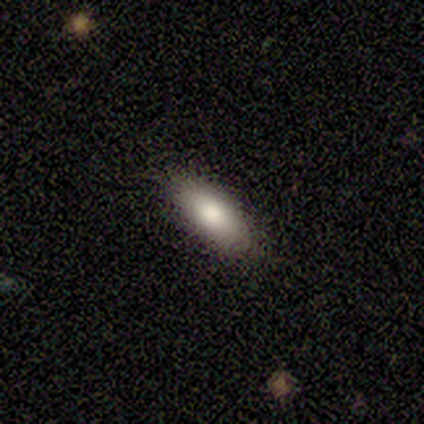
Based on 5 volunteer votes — Smooth or featured? smooth (100%)
How rounded? in between (100%)
Merging? none (100%)